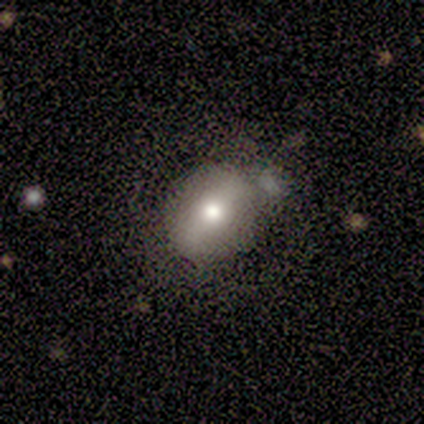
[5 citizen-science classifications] Overall: smooth (40%, tied with featured or disk). How rounded: round (50%, tied with in between). Merging: none (100%).